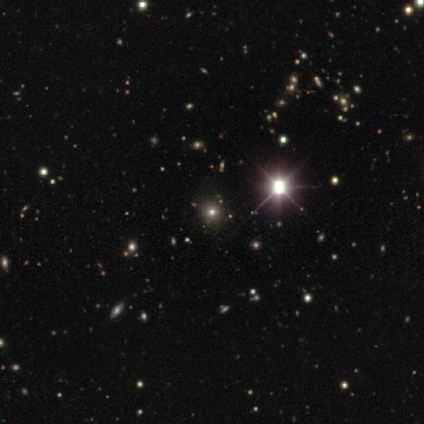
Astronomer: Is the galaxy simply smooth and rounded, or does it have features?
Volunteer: star or artifact — 83%.